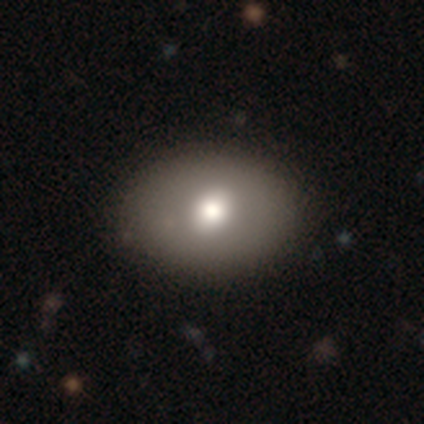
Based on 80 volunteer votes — This appears to be a smooth galaxy with no disk features (69%) that is in between round and cigar-shaped (65%). Merging: none (45%).